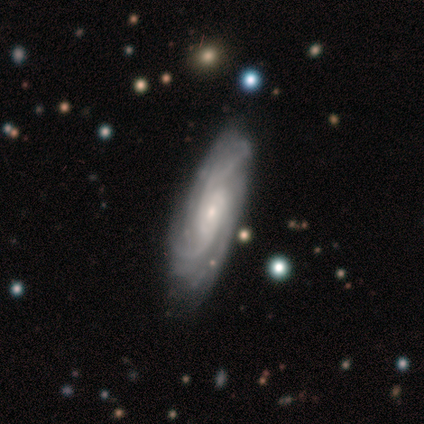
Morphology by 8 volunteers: Smooth or featured? featured or disk (88%)
Edge-on disk? no (100%)
Bar? no (57%)
Spiral arms? yes (100%)
Spiral winding? tight (57%)
Spiral arm count? 3 (43%)
Bulge size? moderate (57%)
Merging? none (50%, tied with minor disturbance)